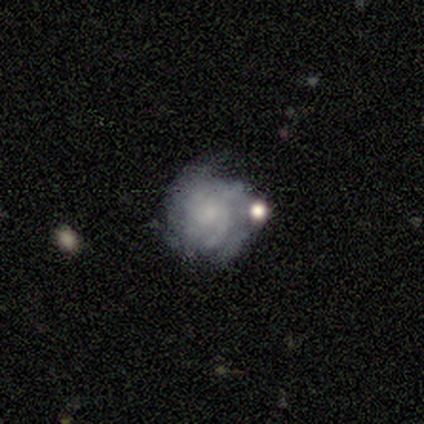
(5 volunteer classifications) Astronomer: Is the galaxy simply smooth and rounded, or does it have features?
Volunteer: featured or disk — 60% (runner-up: smooth, 40%).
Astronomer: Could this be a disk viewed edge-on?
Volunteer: no — 100%.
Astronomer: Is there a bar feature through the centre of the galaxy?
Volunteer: no — 67%.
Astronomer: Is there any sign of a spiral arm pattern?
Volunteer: yes — 100%.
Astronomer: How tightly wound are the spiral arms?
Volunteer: loose — 67%.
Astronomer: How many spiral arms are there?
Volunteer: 2 — 67%.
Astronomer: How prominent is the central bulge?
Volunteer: small — 100%.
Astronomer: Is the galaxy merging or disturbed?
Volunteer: none — 100%.